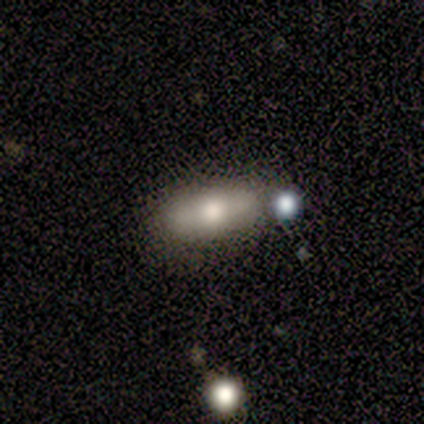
smooth-or-featured: smooth: 55% | featured or disk: 40% | star or artifact: 5%
  how-rounded: in between: 73% | cigar-shaped: 23% | round: 5%
  merging: none: 71% | minor disturbance: 18% | major disturbance: 5% | merger: 5%